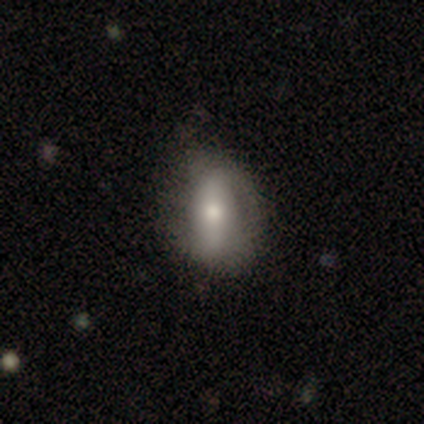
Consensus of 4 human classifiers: A smooth galaxy with no disk features (50%, tied with featured or disk) that is in between round and cigar-shaped (100%).

Vote fractions:
- Smooth or featured? smooth: 50% (tied) / featured or disk: 50% (tied) / star or artifact: 0%
- How rounded? in between: 100% / round: 0% / cigar-shaped: 0%
- Merging? none: 50% (tied) / minor disturbance: 50% (tied) / major disturbance: 0% / merger: 0%